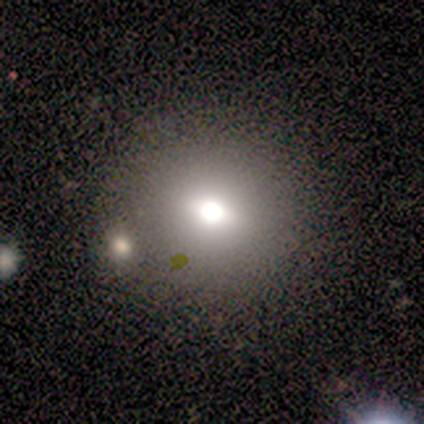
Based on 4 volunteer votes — Overall: smooth (75%). How rounded: round (100%). Merging: none (75%).